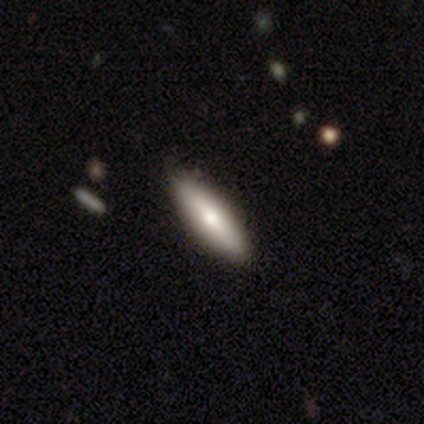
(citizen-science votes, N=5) Smooth or featured? smooth (60%)
How rounded? cigar-shaped (67%)
Merging? none (75%)